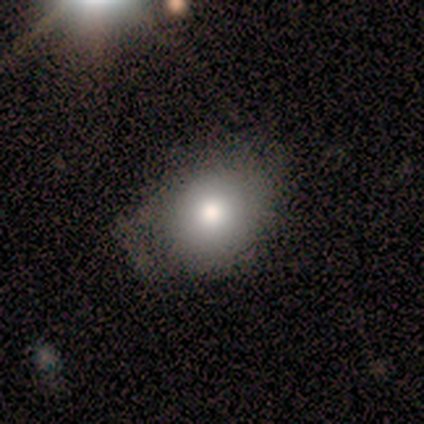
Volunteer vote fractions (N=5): smooth 40% (tied), featured or disk 40% (tied), star or artifact 20%. Down the decision tree: how rounded — round (50%, tied with in between); merging — none (75%).